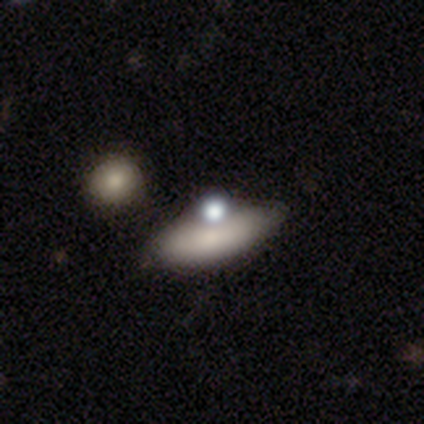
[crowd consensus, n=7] Smooth or featured?
  - smooth: 71% *
  - featured or disk: 14%
  - star or artifact: 14%
How rounded?
  - in between: 100% *
  - round: 0%
  - cigar-shaped: 0%
Merging?
  - none: 83% *
  - merger: 17%
  - minor disturbance: 0%
  - major disturbance: 0%